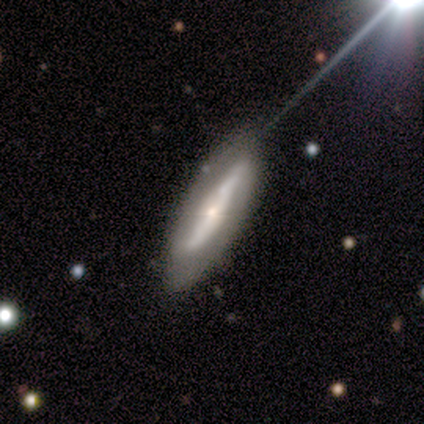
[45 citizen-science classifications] Smooth or featured? 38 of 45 (84%) said featured or disk. Edge-on disk? 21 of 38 (55%) said no. Bar? 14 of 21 (67%) said strong. Spiral arms? 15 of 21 (71%) said yes. Spiral winding? 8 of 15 (53%) said loose. Spiral arm count? 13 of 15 (87%) said 2. Bulge size? 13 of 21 (62%) said small. Merging? 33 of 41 (80%) said none.